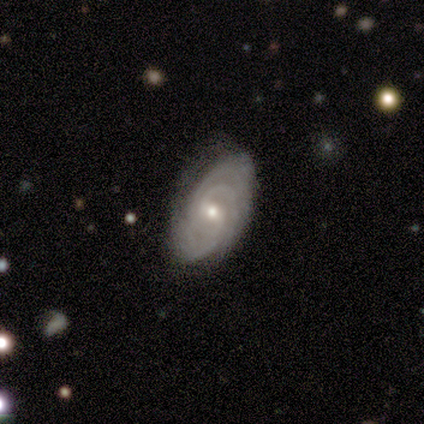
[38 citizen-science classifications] This appears to be a featured or disk galaxy (89%) with a weak bar (48%), 3 (33%) tight (85%) spiral arms (100%) and a small central bulge (52%). Merging: none (89%).